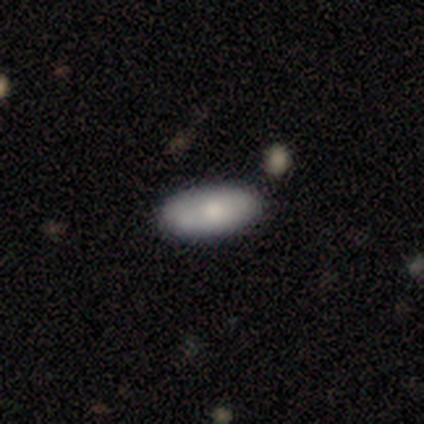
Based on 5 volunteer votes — This appears to be a smooth galaxy with no disk features (100%) that is in between round and cigar-shaped (80%). Merging: none (100%).